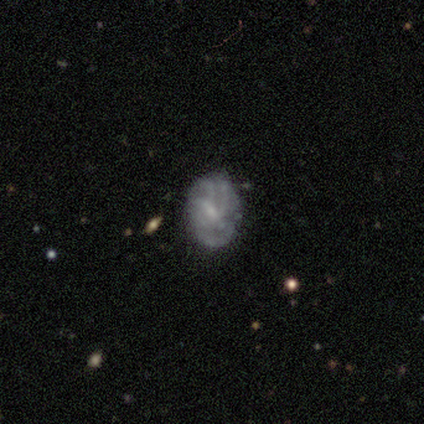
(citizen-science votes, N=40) featured or disk 72%, smooth 22%, star or artifact 5%. Down the decision tree: edge-on disk — no (97%); bar — no (46%); spiral arms — yes (61%); spiral arm count — can't tell (59%); spiral winding — tight (59%); bulge size — small (61%); merging — none (63%).